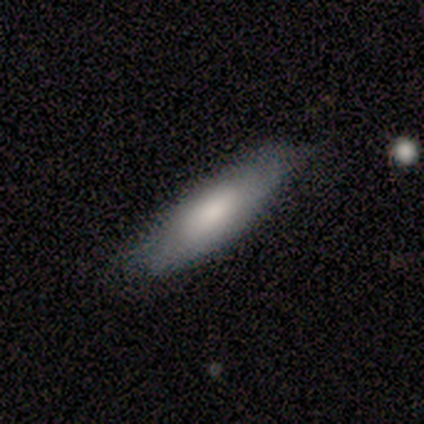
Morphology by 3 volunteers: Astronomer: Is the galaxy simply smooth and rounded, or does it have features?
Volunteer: smooth — 67%.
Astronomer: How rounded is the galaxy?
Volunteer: in between — 100%.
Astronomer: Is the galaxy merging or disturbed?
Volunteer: none — 100%.